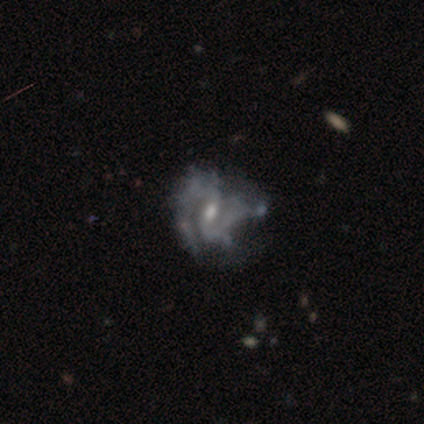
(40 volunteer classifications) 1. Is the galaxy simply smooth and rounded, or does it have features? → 88% featured or disk, 10% smooth, 2% star or artifact.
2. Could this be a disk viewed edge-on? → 100% no, 0% yes.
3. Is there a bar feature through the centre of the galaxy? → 54% weak, 23% strong, 23% no.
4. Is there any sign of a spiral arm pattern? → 77% yes, 23% no.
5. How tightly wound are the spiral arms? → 56% medium, 26% tight, 19% loose.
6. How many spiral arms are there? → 78% 2, 15% can't tell, 7% 3, 0% 1, 0% 4, 0% more than 4.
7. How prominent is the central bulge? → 54% small, 31% moderate, 14% none, 0% dominant, 0% large.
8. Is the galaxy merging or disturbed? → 36% major disturbance, 28% minor disturbance, 26% none, 10% merger.